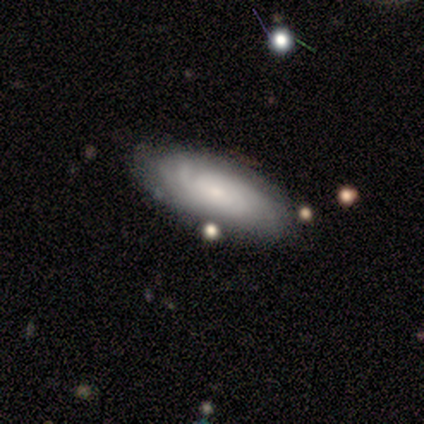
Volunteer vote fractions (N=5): This appears to be a featured or disk galaxy (100%) with no bar (80%), tight (80%) spiral arms (100%) and a small central bulge (100%). Merging: none (100%).